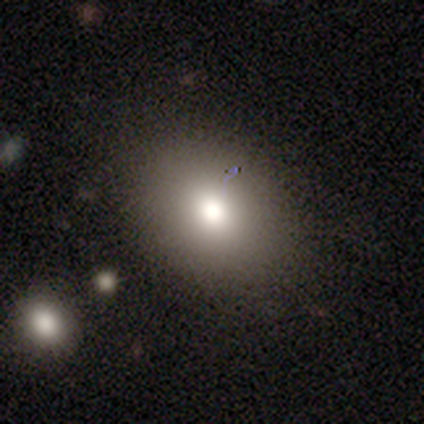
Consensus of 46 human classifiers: Smooth or featured? smooth (80%)
How rounded? in between (51%)
Merging? none (86%)